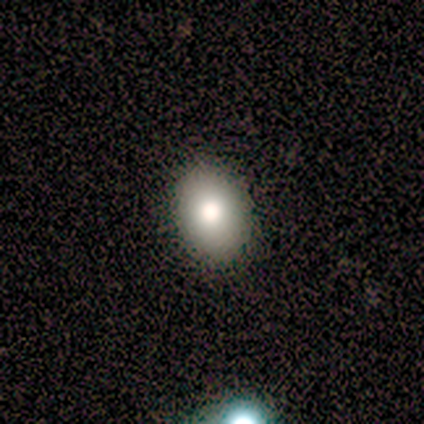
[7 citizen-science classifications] A smooth galaxy with no disk features (57%) that is round (50%, tied with in between). Merging: none (100%).